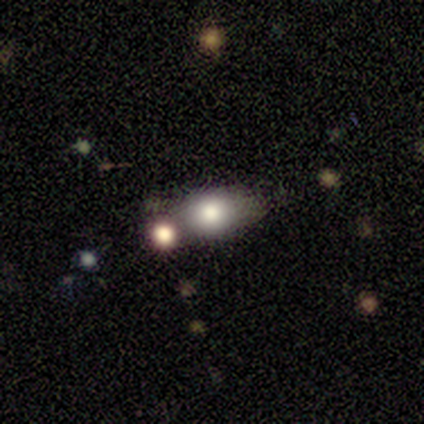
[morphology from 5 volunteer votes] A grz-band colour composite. It shows a smooth galaxy with no disk features (100%) that is in between round and cigar-shaped (60%). Merging: none (80%).